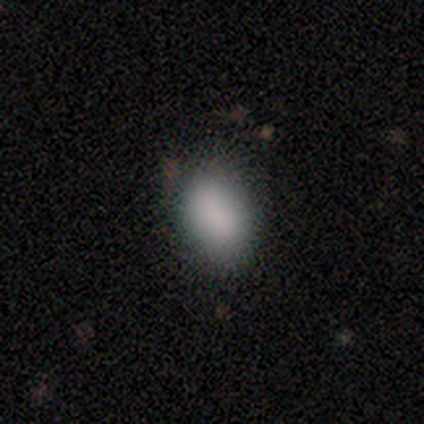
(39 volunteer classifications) Smooth or featured: smooth — 87% (star or artifact — 10%)
How rounded: in between — 88% (round — 12%)
Merging: none — 77% (minor disturbance — 17%)